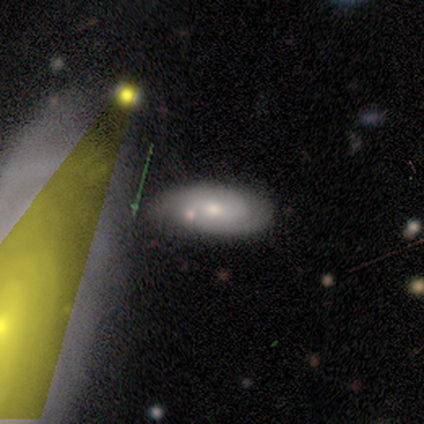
Smooth or featured?
  - smooth: 50% * (tied)
  - featured or disk: 50% * (tied)
  - star or artifact: 0%
How rounded?
  - in between: 100% *
  - round: 0%
  - cigar-shaped: 0%
Merging?
  - none: 83% *
  - minor disturbance: 17%
  - major disturbance: 0%
  - merger: 0%